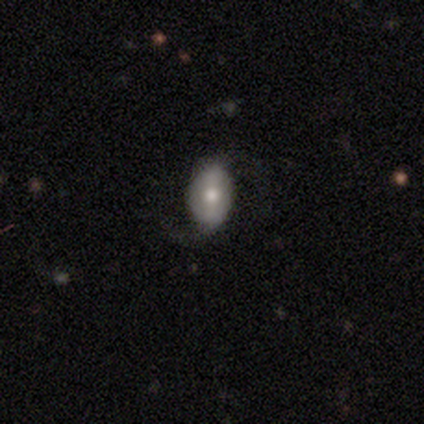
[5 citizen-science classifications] Smooth or featured? 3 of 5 (60%) said featured or disk. Edge-on disk? 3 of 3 (100%) said no. Bar? 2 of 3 (67%) said no. Spiral arms? 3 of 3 (100%) said yes. Spiral winding? 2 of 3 (67%) said medium. Spiral arm count? 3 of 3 (100%) said 2. Bulge size? 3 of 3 (100%) said moderate. Merging? 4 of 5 (80%) said none.